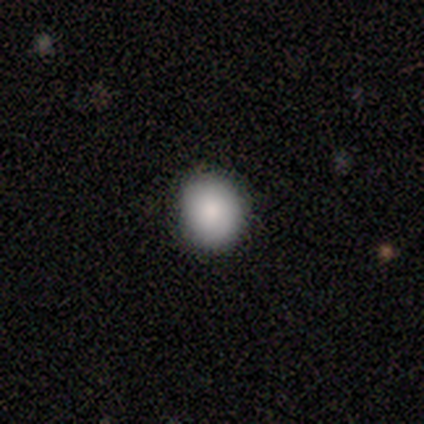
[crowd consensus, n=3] smooth-or-featured: smooth: 100% | featured or disk: 0% | star or artifact: 0%
  how-rounded: round: 67% | in between: 33% | cigar-shaped: 0%
  merging: none: 67% | major disturbance: 33% | minor disturbance: 0% | merger: 0%